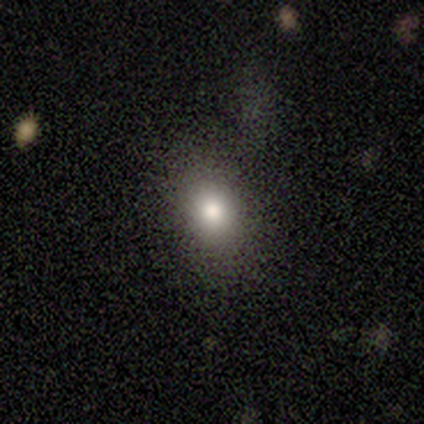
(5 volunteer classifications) Smooth or featured? smooth (60%)
How rounded? in between (100%)
Merging? none (75%)